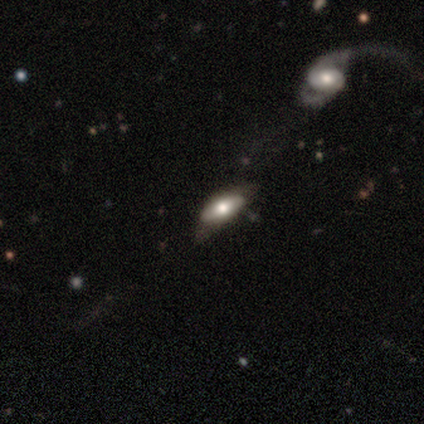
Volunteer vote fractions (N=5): This is likely a featured or disk galaxy (60%). It is likely viewed edge-on (67%). Edge-on bulge: possibly boxy (50%, tied with rounded). Merging: likely none (75%).